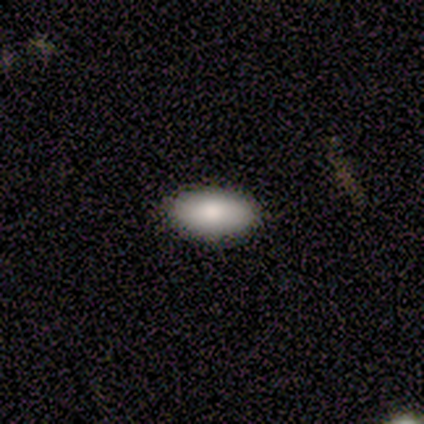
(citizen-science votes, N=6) Overall: smooth (67%; featured or disk 33%). How rounded: in between (75%). Merging: none (83%).